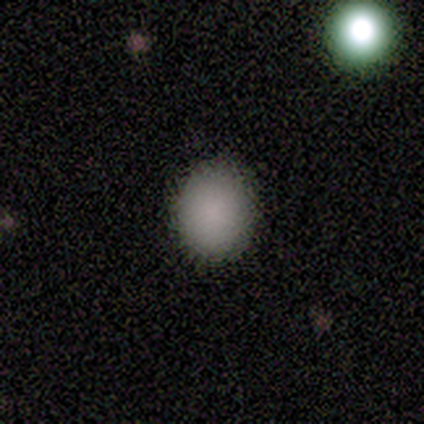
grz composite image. It shows a smooth galaxy with no disk features (78%) that is in between round and cigar-shaped (57%). Merging: none (100%).